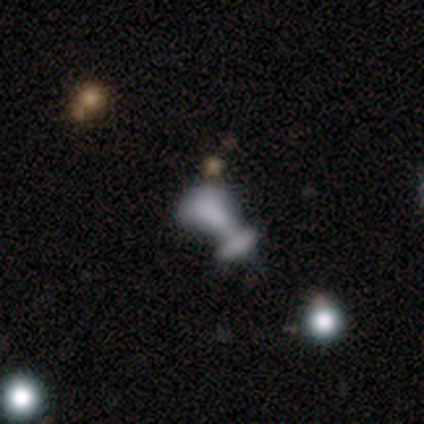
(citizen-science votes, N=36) Morphology: type=featured or disk (50%); edge-on=no (94%); bar=no (88%); spiral arms=no (100%); bulge=none (76%); merging=merger (61%).